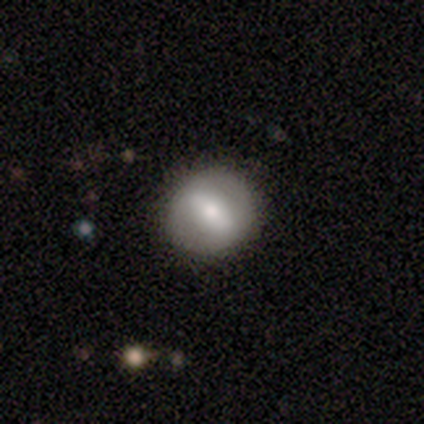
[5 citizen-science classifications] smooth_or_featured: featured or disk (p=0.60) [alt: smooth p=0.40]
disk_edge_on: no (p=1.00)
bar: strong (p=0.67) [alt: no p=0.33]
has_spiral_arms: no (p=1.00)
bulge_size: moderate (p=1.00)
merging: none (p=0.80) [alt: minor disturbance p=0.20]